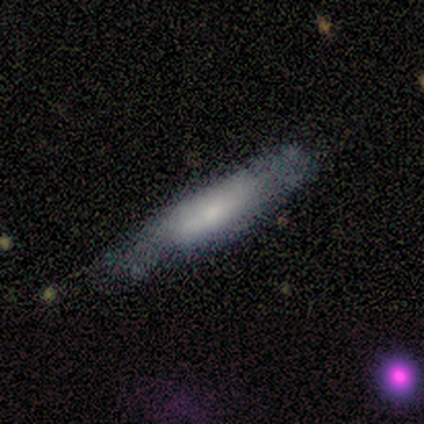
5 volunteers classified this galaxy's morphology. Volunteers were most divided on "smooth or featured": smooth: 60%, featured or disk: 40%, star or artifact: 0%. More confident: how rounded — cigar-shaped (100%); merging — none (60%).